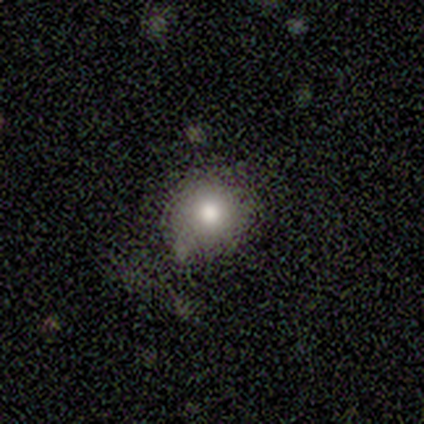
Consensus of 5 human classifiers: smooth 60%, featured or disk 20%, star or artifact 20%. Down the decision tree: how rounded — round (67%); merging — minor disturbance (75%).